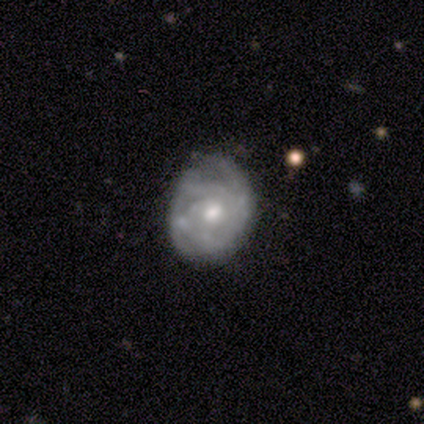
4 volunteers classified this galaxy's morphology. Volunteers were most divided on "spiral winding": tight: 75%, medium: 25%, loose: 0%. More confident: smooth or featured — featured or disk (100%); edge-on disk — no (100%); bar — no (100%); spiral arms — yes (100%); spiral arm count — can't tell (75%); bulge size — moderate (75%); merging — none (75%).